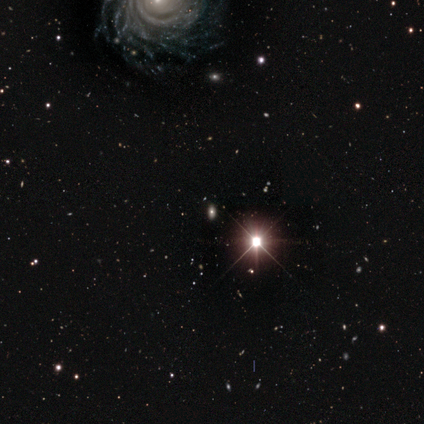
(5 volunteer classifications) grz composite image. It shows a star or artifact, not a galaxy (80%).